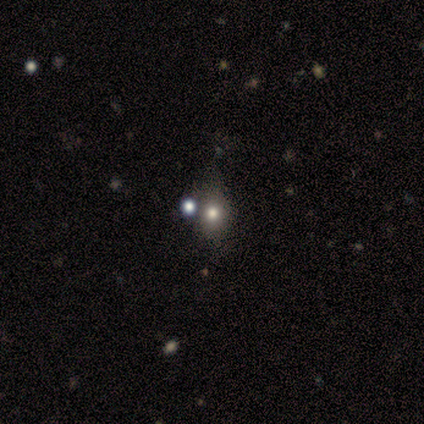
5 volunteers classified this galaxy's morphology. Q: Smooth or featured?
A: star or artifact (60%); runner-up: smooth (40%)